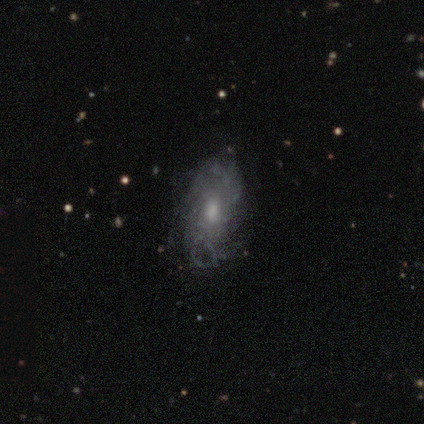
This appears to be a featured or disk galaxy (68%) with no bar (96%), tight (61%) spiral arms (75%) and a moderate central bulge (67%). Merging: none (53%).